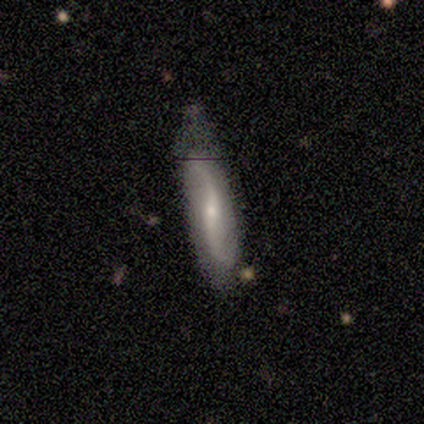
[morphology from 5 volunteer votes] Volunteers were most divided on "smooth or featured": featured or disk: 60%, star or artifact: 40%, smooth: 0%. More confident: edge-on disk — no (100%); spiral arms — yes (100%); spiral winding — loose (100%); spiral arm count — 2 (100%); bulge size — small (100%); bar — no (67%); merging — minor disturbance (67%).